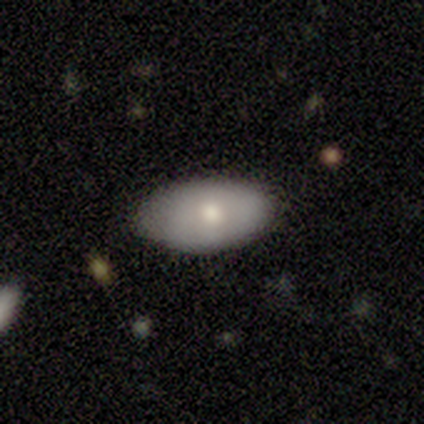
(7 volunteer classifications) A smooth galaxy with no disk features (86%) that is in between round and cigar-shaped (83%).

Vote fractions:
- Smooth or featured? smooth: 86% / featured or disk: 14% / star or artifact: 0%
- How rounded? in between: 83% / round: 17% / cigar-shaped: 0%
- Merging? none: 71% / minor disturbance: 29% / major disturbance: 0% / merger: 0%